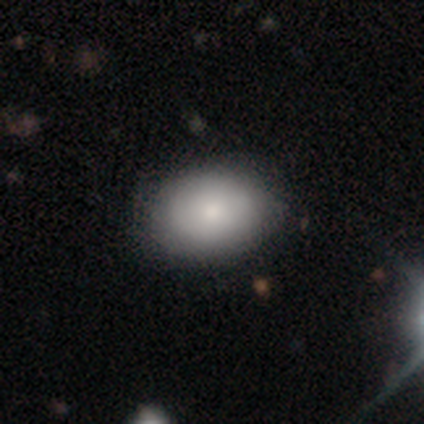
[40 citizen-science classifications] Smooth or featured: smooth — 65% (featured or disk — 30%)
How rounded: in between — 73% (round — 27%)
Merging: none — 55% (minor disturbance — 11%)